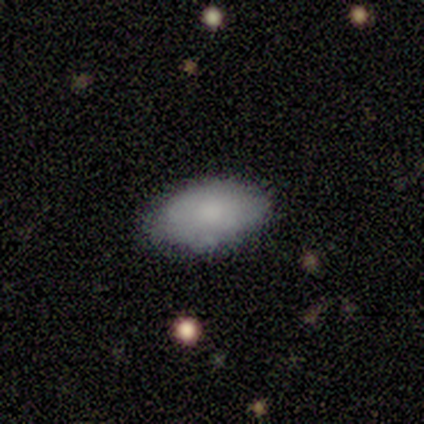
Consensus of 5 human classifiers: smooth 80%, featured or disk 20%, star or artifact 0%. Down the decision tree: how rounded — in between (100%); merging — none (100%).